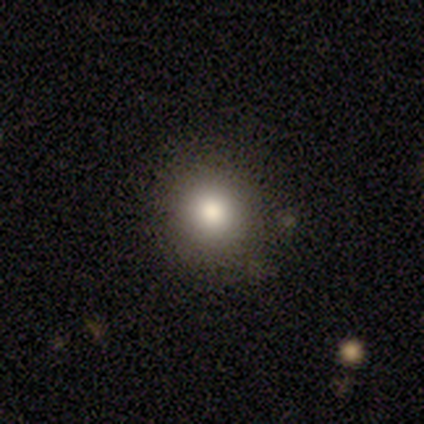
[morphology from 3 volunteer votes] smooth_or_featured: smooth (p=0.33) [tied with: featured or disk p=0.33, star or artifact p=0.33]
how_rounded: round (p=1.00)
merging: none (p=0.50) [tied with: major disturbance p=0.50]